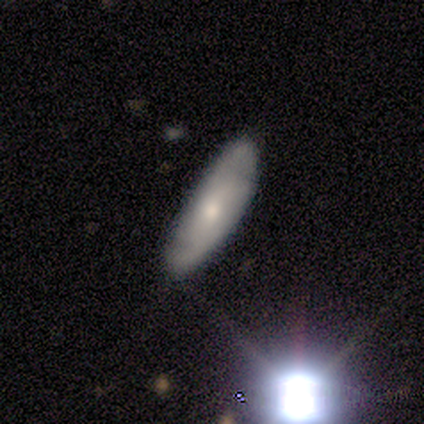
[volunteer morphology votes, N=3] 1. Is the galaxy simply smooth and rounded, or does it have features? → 67% featured or disk, 33% smooth, 0% star or artifact.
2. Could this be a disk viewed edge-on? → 100% no, 0% yes.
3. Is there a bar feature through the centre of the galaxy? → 100% no, 0% strong, 0% weak.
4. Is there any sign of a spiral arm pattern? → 100% yes, 0% no.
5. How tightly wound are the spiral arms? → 100% tight, 0% medium, 0% loose.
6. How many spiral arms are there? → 50% 2 (tied), 50% can't tell (tied), 0% 1, 0% 3, 0% 4, 0% more than 4.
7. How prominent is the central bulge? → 100% small, 0% dominant, 0% large, 0% moderate, 0% none.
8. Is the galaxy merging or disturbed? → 100% none, 0% minor disturbance, 0% major disturbance, 0% merger.